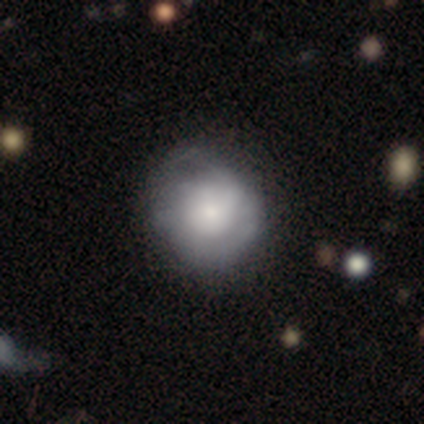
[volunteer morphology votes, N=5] This appears to be a smooth galaxy with no disk features (80%) that is round (100%). Merging: none (80%).